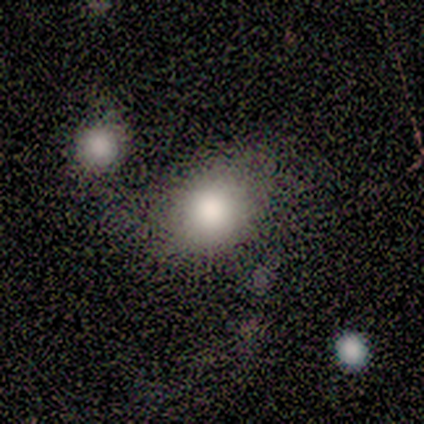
Volunteers were most divided on "merging" (2-way tie): none: 40%, minor disturbance: 40%, merger: 20%, major disturbance: 0%. More confident: smooth or featured — smooth (80%); how rounded — round (75%).